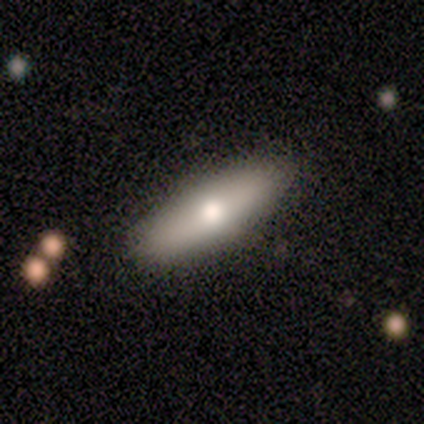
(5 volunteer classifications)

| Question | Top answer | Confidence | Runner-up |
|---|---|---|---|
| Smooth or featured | featured or disk | 80% | smooth (20%) |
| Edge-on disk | yes | 50% | tied: no (50%) |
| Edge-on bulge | rounded | 100% | — |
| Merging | none | 60% | major disturbance (40%) |